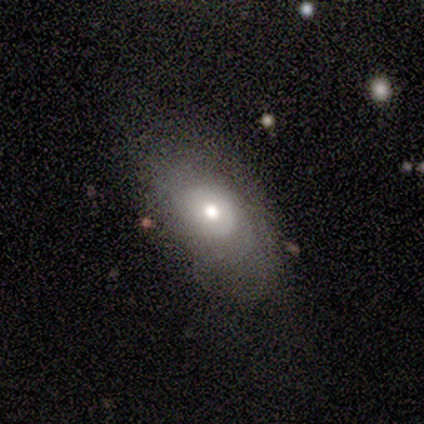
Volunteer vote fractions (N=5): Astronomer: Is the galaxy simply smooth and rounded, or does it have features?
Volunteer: smooth — 60% (runner-up: featured or disk, 40%).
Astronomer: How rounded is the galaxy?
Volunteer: in between — 100%.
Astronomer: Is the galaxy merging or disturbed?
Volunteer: none — 40%, tied with minor disturbance at 40%.